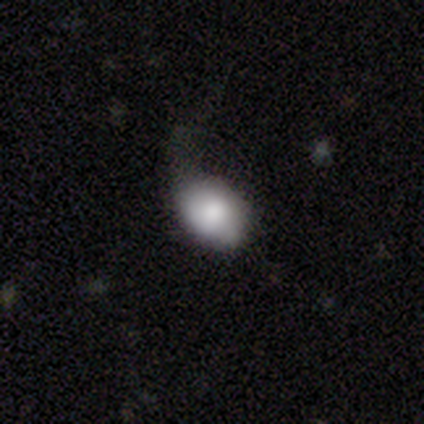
Smooth or featured? smooth (80%)
How rounded? round (50%, tied with in between)
Merging? major disturbance (50%)